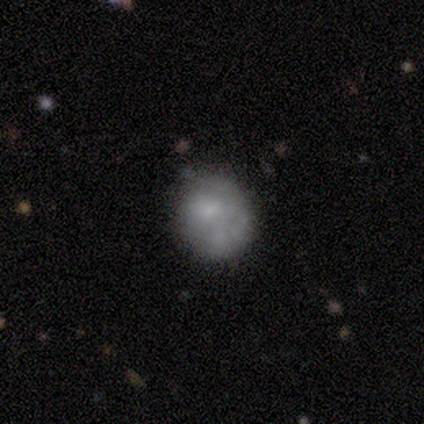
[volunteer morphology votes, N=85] Smooth or featured: smooth — 59% (featured or disk — 31%)
How rounded: round — 84% (in between — 16%)
Merging: none — 58% (minor disturbance — 28%)